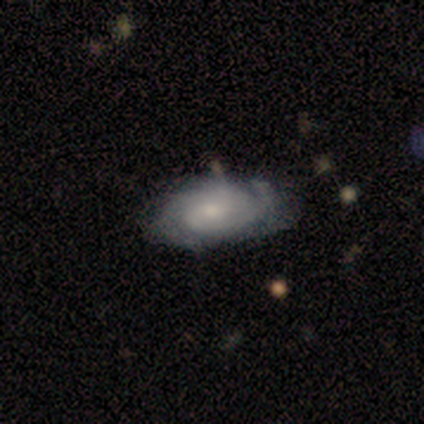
A featured or disk galaxy (88%) with no bar (60%), 2 (48%) tight (58%) spiral arms (89%) and a small central bulge (66%). Merging: none (46%).